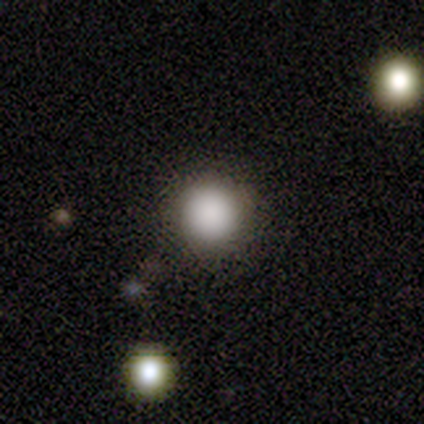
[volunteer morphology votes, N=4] A smooth galaxy with no disk features (100%) that is round (100%).

Vote fractions:
- Smooth or featured? smooth: 100% / featured or disk: 0% / star or artifact: 0%
- How rounded? round: 100% / in between: 0% / cigar-shaped: 0%
- Merging? none: 100% / minor disturbance: 0% / major disturbance: 0% / merger: 0%